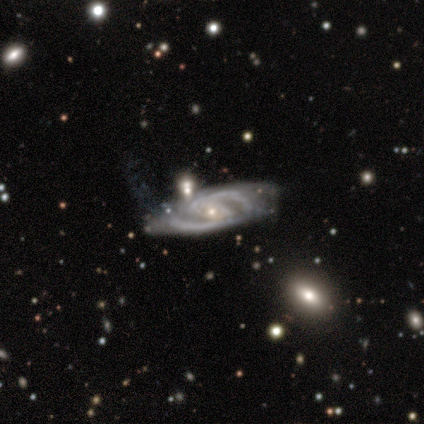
Smooth or featured?
  - featured or disk: 100% *
  - smooth: 0%
  - star or artifact: 0%
Edge-on disk?
  - no: 100% *
  - yes: 0%
Bar?
  - weak: 60% *
  - no: 40%
  - strong: 0%
Spiral arms?
  - yes: 100% *
  - no: 0%
Spiral winding?
  - medium: 80% *
  - tight: 20%
  - loose: 0%
Spiral arm count?
  - 2: 100% *
  - 1: 0%
  - 3: 0%
  - 4: 0%
  - more than 4: 0%
  - can't tell: 0%
Bulge size?
  - small: 80% *
  - moderate: 20%
  - dominant: 0%
  - large: 0%
  - none: 0%
Merging?
  - minor disturbance: 60% *
  - none: 20%
  - major disturbance: 20%
  - merger: 0%